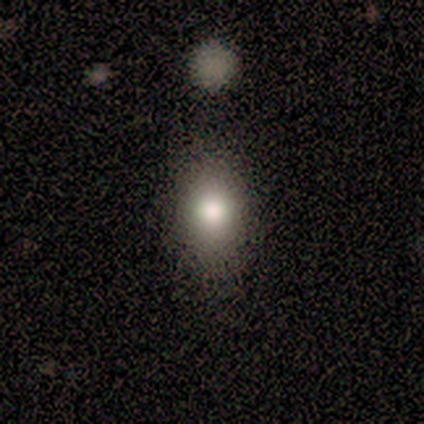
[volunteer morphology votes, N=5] smooth-or-featured: smooth: 80% | star or artifact: 20% | featured or disk: 0%
  how-rounded: round: 50% (tied) | in between: 50% (tied) | cigar-shaped: 0%
  merging: none: 100% | minor disturbance: 0% | major disturbance: 0% | merger: 0%